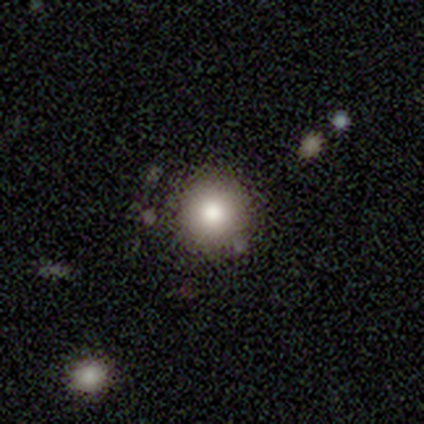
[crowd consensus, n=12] Smooth or featured?
  - smooth: 75% *
  - featured or disk: 17%
  - star or artifact: 8%
How rounded?
  - round: 100% *
  - in between: 0%
  - cigar-shaped: 0%
Merging?
  - none: 100% *
  - minor disturbance: 0%
  - major disturbance: 0%
  - merger: 0%